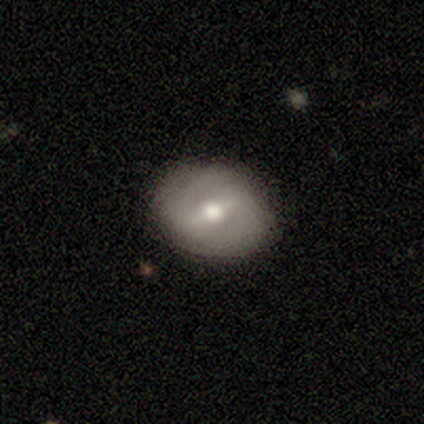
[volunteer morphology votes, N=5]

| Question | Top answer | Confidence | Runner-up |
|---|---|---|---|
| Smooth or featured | featured or disk | 60% | smooth (20%) |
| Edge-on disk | no | 100% | — |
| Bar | strong | 67% | no (33%) |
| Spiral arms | no | 67% | yes (33%) |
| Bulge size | moderate | 67% | small (33%) |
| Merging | none | 50% | tied: minor disturbance (50%) |